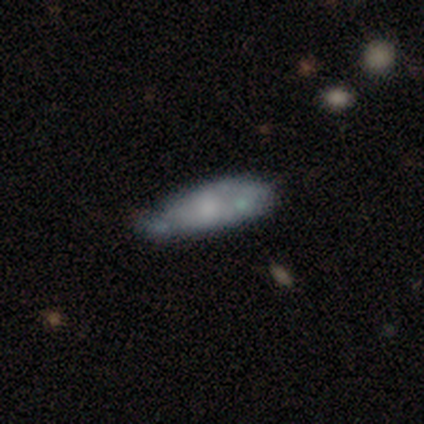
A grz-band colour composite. It shows a featured or disk galaxy (80%) with no bar (100%), no spiral arms (100%) and a moderate central bulge (67%). Merging: minor disturbance (60%).